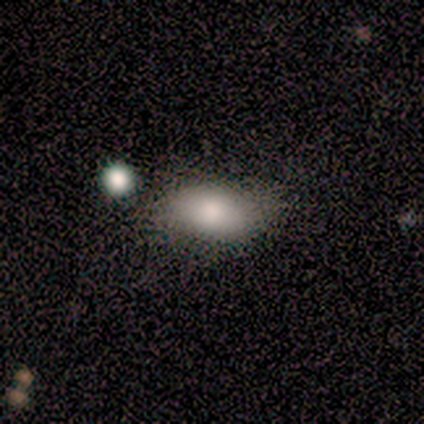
A smooth galaxy with no disk features (100%) that is in between round and cigar-shaped (100%).

Vote fractions:
- Smooth or featured? smooth: 100% / featured or disk: 0% / star or artifact: 0%
- How rounded? in between: 100% / round: 0% / cigar-shaped: 0%
- Merging? none: 50% (tied) / minor disturbance: 50% (tied) / major disturbance: 0% / merger: 0%